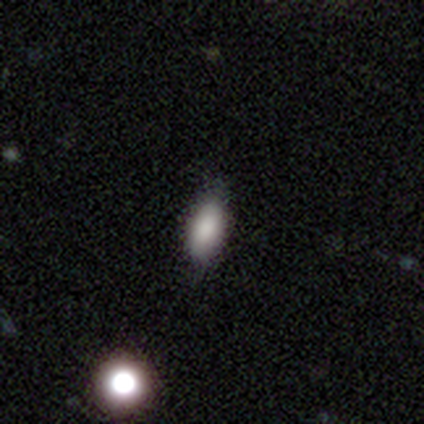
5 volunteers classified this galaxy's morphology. Smooth or featured: smooth — 80% (featured or disk — 20%)
How rounded: in between — 100%
Merging: none — 40% (tied with minor disturbance — 40%)